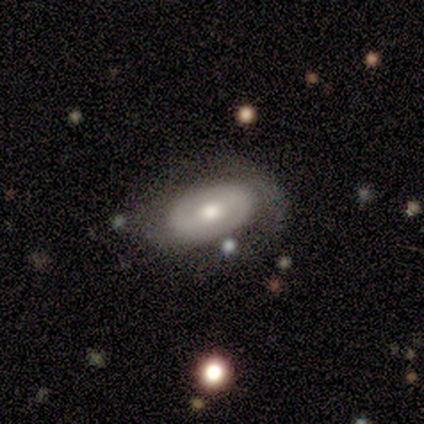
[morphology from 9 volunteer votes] This appears to be a featured or disk galaxy (89%) with a weak bar (57%), 2 (75%) tight (50%, tied with medium) spiral arms (57%) and a moderate central bulge (86%). Merging: none (88%).